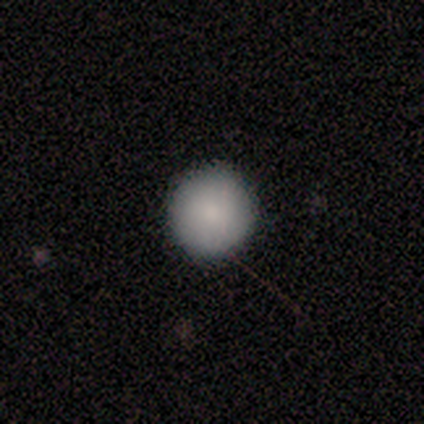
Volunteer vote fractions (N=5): A smooth galaxy with no disk features (100%) that is round (100%).

Vote fractions:
- Smooth or featured? smooth: 100% / featured or disk: 0% / star or artifact: 0%
- How rounded? round: 100% / in between: 0% / cigar-shaped: 0%
- Merging? none: 100% / minor disturbance: 0% / major disturbance: 0% / merger: 0%